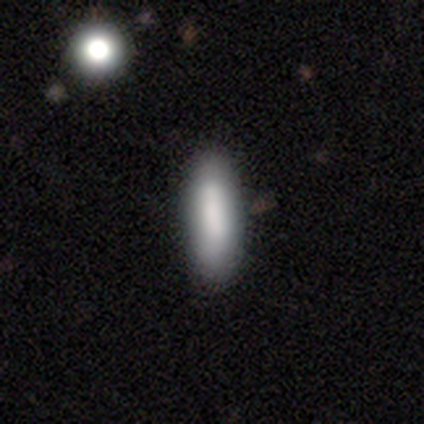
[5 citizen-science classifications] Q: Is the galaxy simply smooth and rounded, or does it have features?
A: smooth — 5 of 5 (100%).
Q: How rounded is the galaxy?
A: in between — 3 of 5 (60%).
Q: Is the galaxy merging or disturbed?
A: none — 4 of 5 (80%).